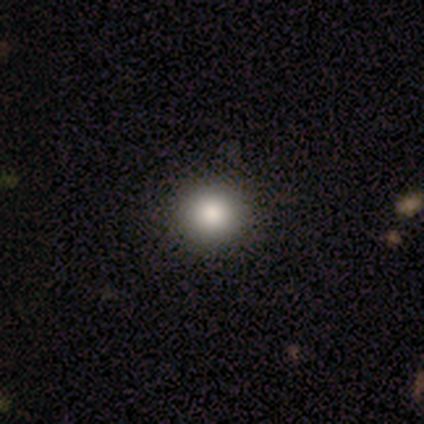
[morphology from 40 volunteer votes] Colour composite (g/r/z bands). It shows a smooth galaxy with no disk features (85%) that is round (97%). Merging: none (100%).